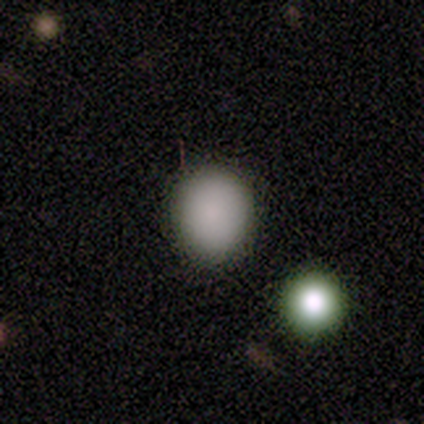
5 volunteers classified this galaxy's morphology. Q: Smooth or featured?
A: smooth (100%)
Q: How rounded?
A: round (100%)
Q: Merging?
A: none (80%); runner-up: major disturbance (20%)